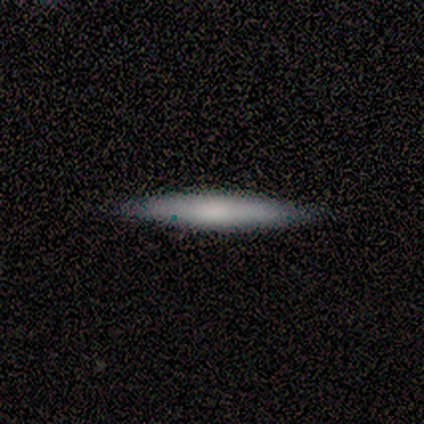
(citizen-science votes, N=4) smooth 50%, featured or disk 25%, star or artifact 25%. Down the decision tree: how rounded — cigar-shaped (100%); merging — none (100%).